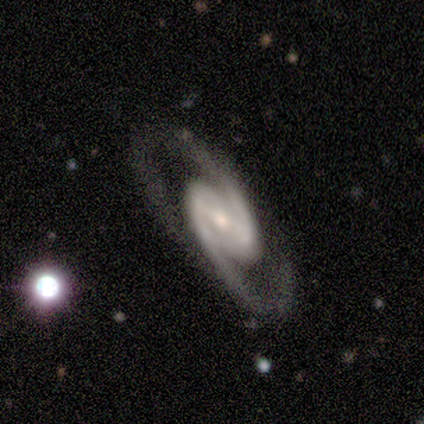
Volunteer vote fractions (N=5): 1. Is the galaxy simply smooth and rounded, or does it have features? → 100% featured or disk, 0% smooth, 0% star or artifact.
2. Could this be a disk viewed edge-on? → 100% no, 0% yes.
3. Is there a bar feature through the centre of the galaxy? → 80% weak, 20% strong, 0% no.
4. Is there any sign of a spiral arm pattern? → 100% yes, 0% no.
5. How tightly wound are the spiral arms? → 80% medium, 20% tight, 0% loose.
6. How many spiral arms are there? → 100% 2, 0% 1, 0% 3, 0% 4, 0% more than 4, 0% can't tell.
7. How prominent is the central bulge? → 60% small, 20% large, 20% moderate, 0% dominant, 0% none.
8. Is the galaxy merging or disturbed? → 80% none, 20% minor disturbance, 0% major disturbance, 0% merger.